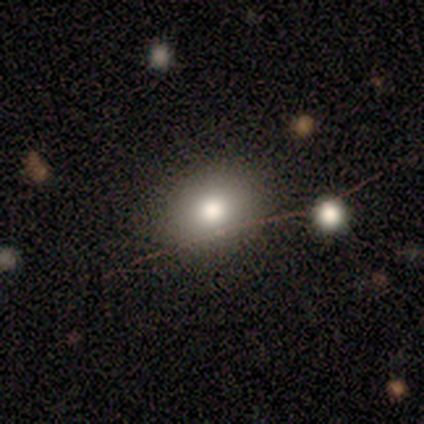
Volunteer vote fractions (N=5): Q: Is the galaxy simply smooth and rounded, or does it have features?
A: smooth — 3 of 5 (60%).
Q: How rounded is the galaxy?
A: round — 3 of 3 (100%).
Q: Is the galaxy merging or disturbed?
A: none — 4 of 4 (100%).